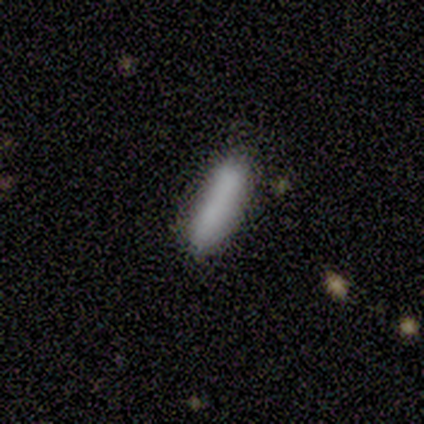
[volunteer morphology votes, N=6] smooth 83%, featured or disk 17%, star or artifact 0%. Down the decision tree: how rounded — in between (60%); merging — none (100%).